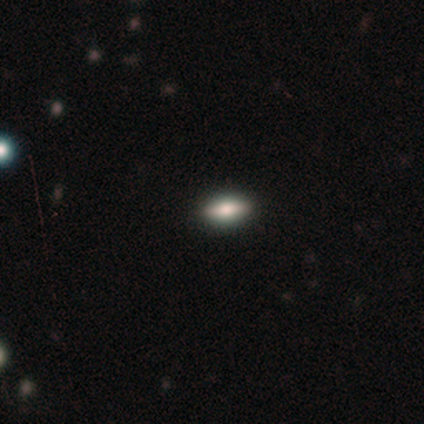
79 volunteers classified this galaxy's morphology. A smooth galaxy with no disk features (73%) that is in between round and cigar-shaped (79%). Merging: none (53%).